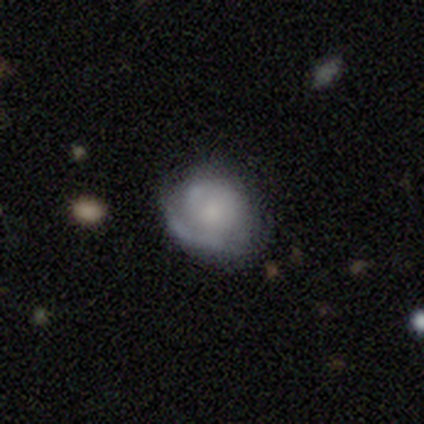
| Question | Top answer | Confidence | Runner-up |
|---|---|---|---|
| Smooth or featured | featured or disk | 57% | smooth (35%) |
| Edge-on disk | no | 100% | — |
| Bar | no | 81% | weak (19%) |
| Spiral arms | yes | 86% | no (14%) |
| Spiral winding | medium | 44% | tight (39%) |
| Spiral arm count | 1 | 33% | 2 (28%) |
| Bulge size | none | 33% | small (24%) |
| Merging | none | 62% | minor disturbance (26%) |